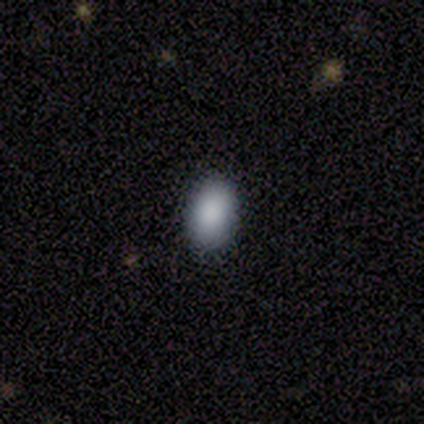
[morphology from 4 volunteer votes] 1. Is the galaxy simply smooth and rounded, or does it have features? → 100% smooth, 0% featured or disk, 0% star or artifact.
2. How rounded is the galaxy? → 75% in between, 25% round, 0% cigar-shaped.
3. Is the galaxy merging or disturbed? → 100% none, 0% minor disturbance, 0% major disturbance, 0% merger.